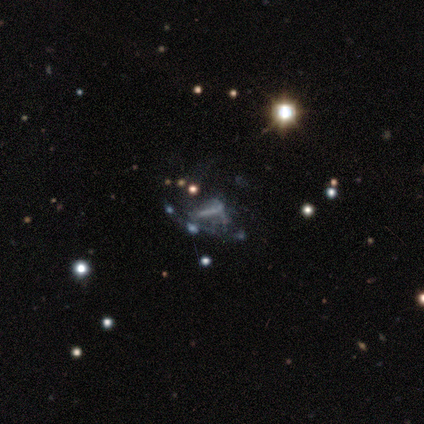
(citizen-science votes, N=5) Smooth or featured? featured or disk (40%, tied with star or artifact)
Edge-on disk? yes (50%, tied with no)
Edge-on bulge? none (100%)
Merging? none (67%)